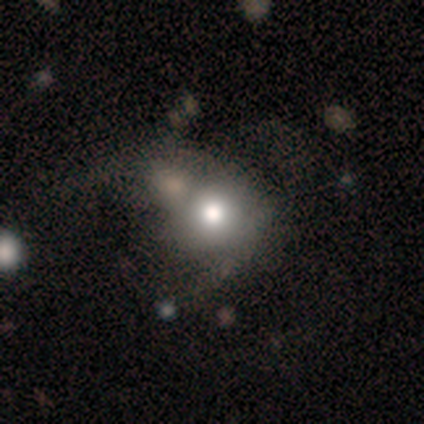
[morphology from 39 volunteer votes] Smooth or featured: smooth — 74% (featured or disk — 23%)
How rounded: round — 79% (in between — 21%)
Merging: merger — 26% (major disturbance — 24%)